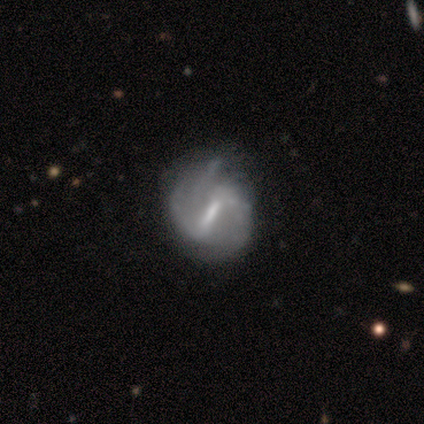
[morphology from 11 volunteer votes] This appears to be a featured or disk galaxy (82%) with a strong bar (78%), 2 (50%) medium (50%) spiral arms (89%) and a small central bulge (67%). Merging: none (50%).